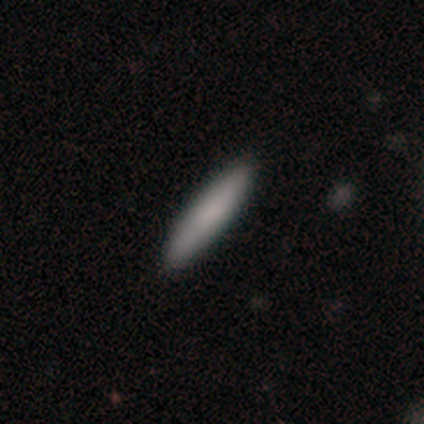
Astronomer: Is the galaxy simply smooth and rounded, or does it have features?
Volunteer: smooth — 100%.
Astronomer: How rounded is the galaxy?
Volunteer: cigar-shaped — 80%.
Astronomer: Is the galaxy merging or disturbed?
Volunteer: none — 80%.